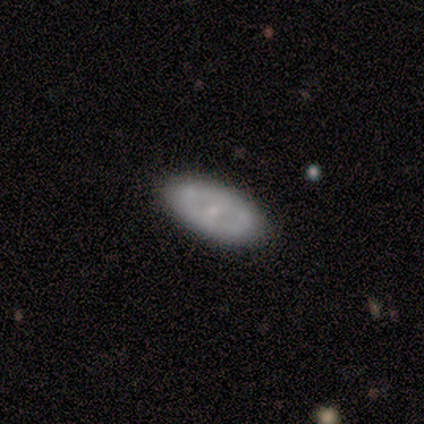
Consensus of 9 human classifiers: Smooth or featured? smooth (56%)
How rounded? in between (100%)
Merging? none (89%)